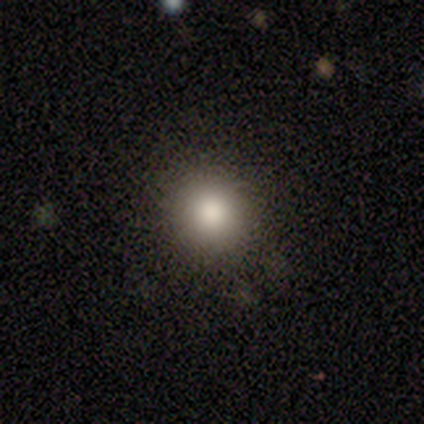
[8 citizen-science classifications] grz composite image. It shows a smooth galaxy with no disk features (100%) that is round (100%). Merging: none (88%).